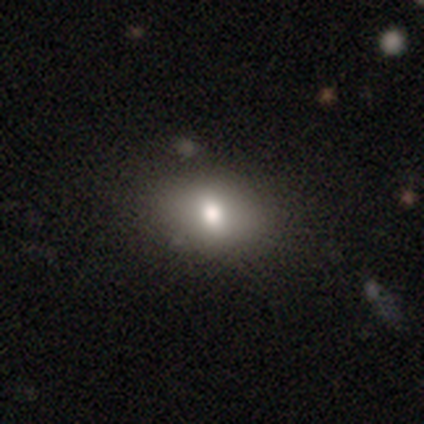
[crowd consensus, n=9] Overall: smooth (56%; featured or disk 22%). How rounded: in between (80%). Merging: none (100%).